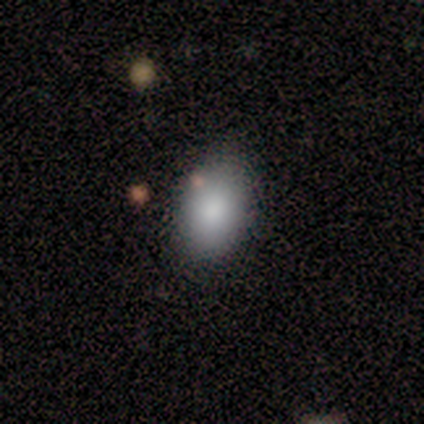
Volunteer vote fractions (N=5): This is clearly a smooth galaxy (100%). How rounded: clearly in between (100%). Merging: clearly none (80%).